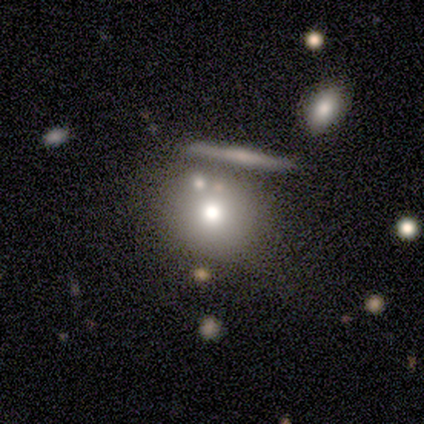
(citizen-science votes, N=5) This is likely a smooth galaxy (60%). How rounded: clearly round (100%). Merging: likely none (75%).